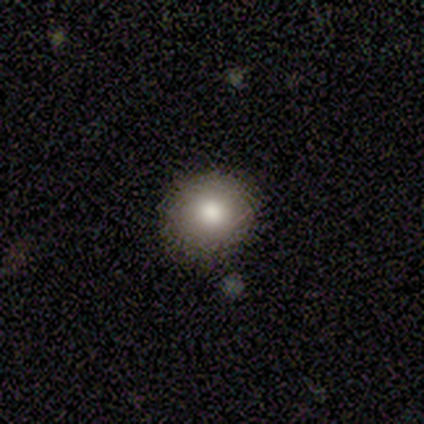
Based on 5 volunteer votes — This appears to be a smooth galaxy with no disk features (100%) that is round (80%). Merging: none (80%).